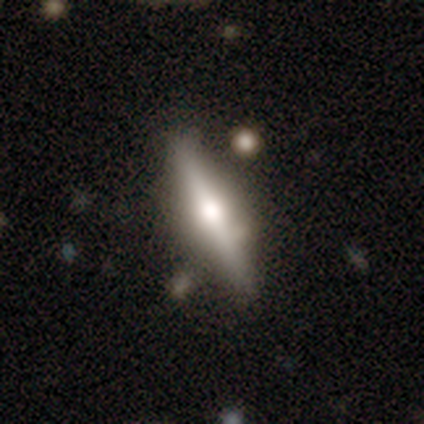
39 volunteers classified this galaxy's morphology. Smooth or featured?
  - featured or disk: 67% *
  - smooth: 33%
  - star or artifact: 0%
Edge-on disk?
  - yes: 92% *
  - no: 8%
Edge-on bulge?
  - rounded: 83% *
  - boxy: 12%
  - none: 4%
Merging?
  - none: 77% *
  - minor disturbance: 10%
  - merger: 8%
  - major disturbance: 5%